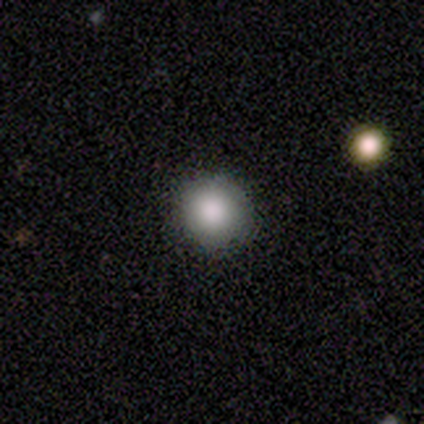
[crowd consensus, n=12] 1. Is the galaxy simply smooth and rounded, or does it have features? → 92% smooth, 8% featured or disk, 0% star or artifact.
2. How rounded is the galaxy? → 91% round, 9% in between, 0% cigar-shaped.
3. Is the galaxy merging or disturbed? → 100% none, 0% minor disturbance, 0% major disturbance, 0% merger.